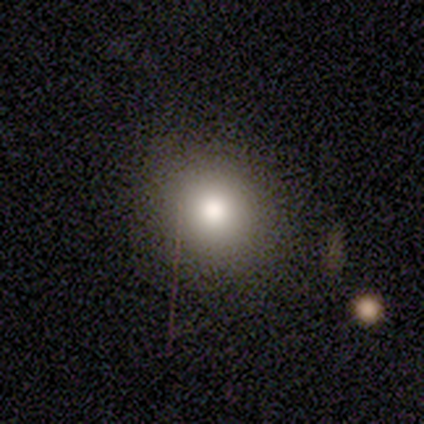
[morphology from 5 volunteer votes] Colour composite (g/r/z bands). It shows a smooth galaxy with no disk features (80%) that is round (100%). Merging: none (75%).